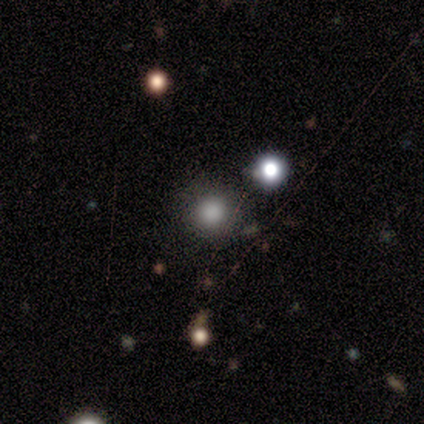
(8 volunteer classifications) A smooth galaxy with no disk features (50%) that is round (100%).

Vote fractions:
- Smooth or featured? smooth: 50% / star or artifact: 38% / featured or disk: 12%
- How rounded? round: 100% / in between: 0% / cigar-shaped: 0%
- Merging? none: 80% / minor disturbance: 20% / major disturbance: 0% / merger: 0%